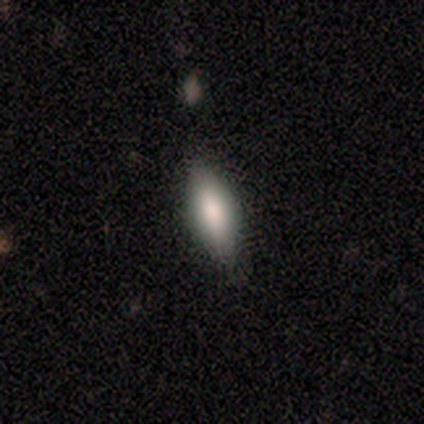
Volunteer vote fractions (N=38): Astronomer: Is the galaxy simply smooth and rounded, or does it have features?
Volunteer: smooth — 74%.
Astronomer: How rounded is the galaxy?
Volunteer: in between — 64%.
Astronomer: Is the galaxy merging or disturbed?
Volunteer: none — 83%.